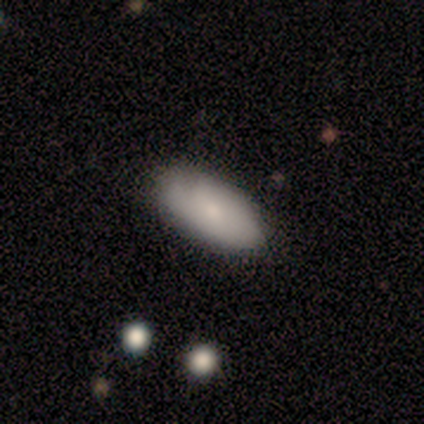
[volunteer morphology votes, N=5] Q: Smooth or featured?
A: smooth (60%); runner-up: featured or disk (40%)
Q: How rounded?
A: in between (100%)
Q: Merging?
A: none (80%); runner-up: minor disturbance (20%)